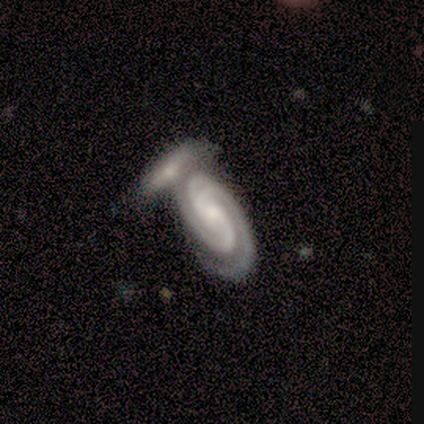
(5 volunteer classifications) Morphology: type=featured or disk (80%); edge-on=no (100%); bar=no (75%); spiral arms=yes (100%); winding=tight (75%); arm count=2 (75%); bulge=small (75%); merging=merger (80%).